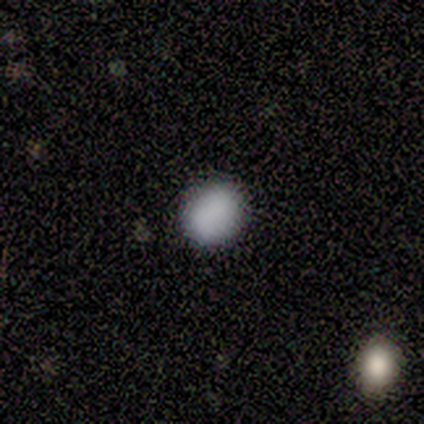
Smooth or featured? smooth (100%)
How rounded? round (60%)
Merging? none (100%)